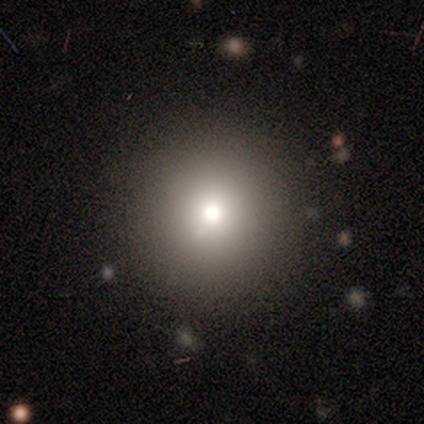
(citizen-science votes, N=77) Smooth or featured? 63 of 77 (82%) said smooth. How rounded? 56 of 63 (89%) said round. Merging? 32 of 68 (47%) said none.